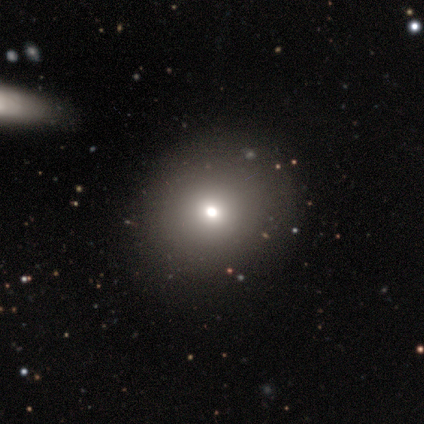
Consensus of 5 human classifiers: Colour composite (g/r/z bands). It shows a smooth galaxy with no disk features (40%, tied with featured or disk) that is round (100%). Merging: none (100%).